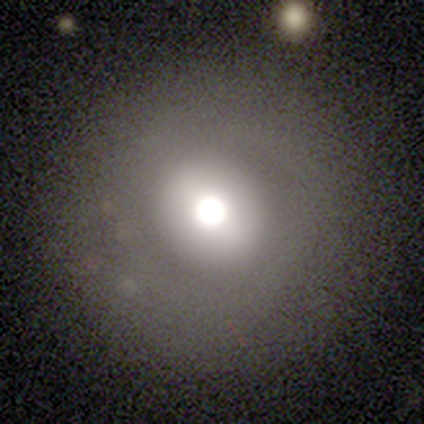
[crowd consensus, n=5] Volunteers were most divided on "smooth or featured": smooth: 60%, star or artifact: 40%, featured or disk: 0%. More confident: how rounded — round (100%); merging — none (100%).